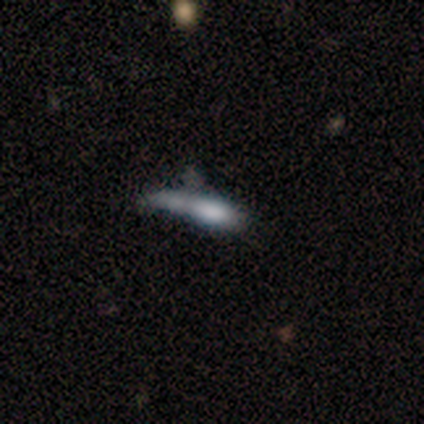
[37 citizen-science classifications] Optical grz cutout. It shows a smooth galaxy with no disk features (59%) that is cigar-shaped (68%). Merging: major disturbance (28%).